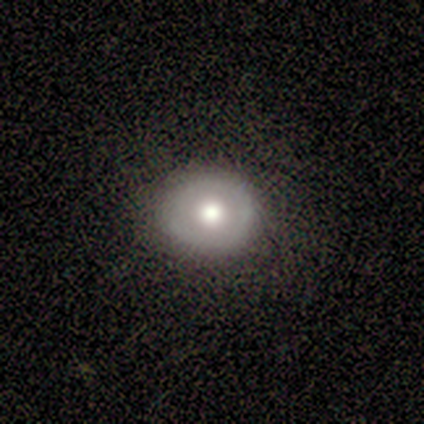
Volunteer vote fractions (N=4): Volunteers were most divided on "bulge size" (2-way tie): large: 50%, moderate: 50%, dominant: 0%, small: 0%, none: 0%. More confident: edge-on disk — no (100%); bar — no (100%); spiral arms — no (100%); merging — none (100%); smooth or featured — featured or disk (50%).